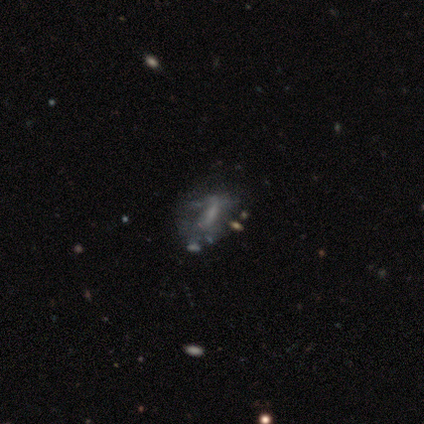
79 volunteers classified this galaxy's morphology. Smooth or featured?
  - featured or disk: 53% *
  - smooth: 24%
  - star or artifact: 23%
Edge-on disk?
  - no: 98% *
  - yes: 2%
Bar?
  - no: 51% *
  - weak: 34%
  - strong: 15%
Spiral arms?
  - no: 78% *
  - yes: 22%
Bulge size?
  - none: 59% *
  - small: 24%
  - moderate: 15%
  - large: 2%
  - dominant: 0%
Merging?
  - none: 34% *
  - major disturbance: 13%
  - minor disturbance: 8%
  - merger: 7%